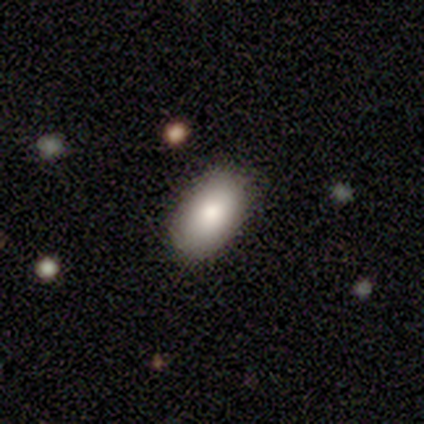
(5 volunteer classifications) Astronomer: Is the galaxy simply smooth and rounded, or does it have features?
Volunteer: smooth — 80%.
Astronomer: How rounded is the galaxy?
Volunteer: in between — 75%.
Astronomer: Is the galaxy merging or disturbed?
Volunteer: none — 80%.